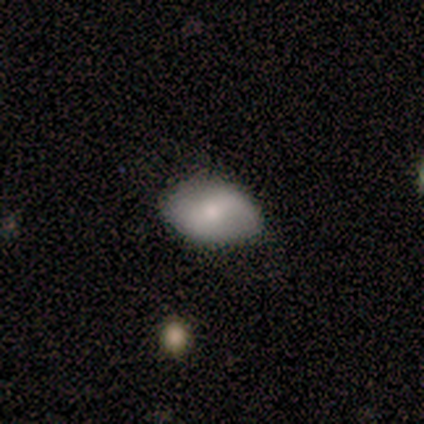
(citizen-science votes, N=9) Smooth or featured? 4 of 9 (44%, tied with featured or disk) said smooth. How rounded? 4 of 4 (100%) said in between. Merging? 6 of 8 (75%) said none.